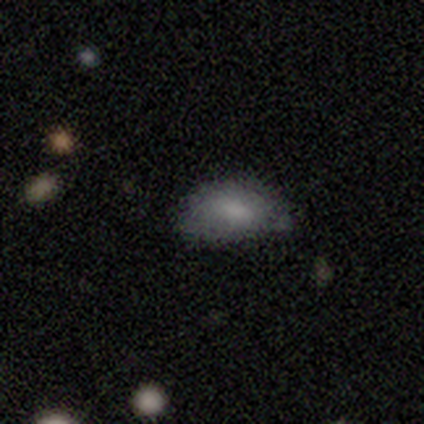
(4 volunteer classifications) smooth 100%, featured or disk 0%, star or artifact 0%. Down the decision tree: how rounded — in between (100%); merging — none (25%, tied with minor disturbance, major disturbance and merger).